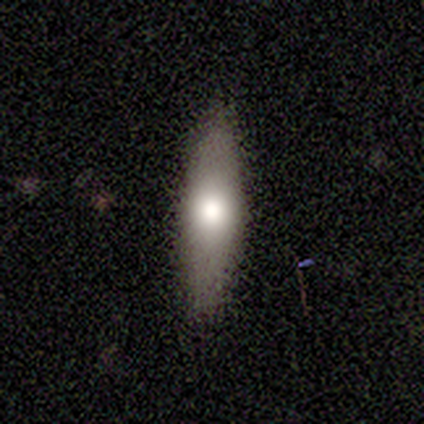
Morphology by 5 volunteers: This appears to be a smooth galaxy with no disk features (40%, tied with featured or disk) that is in between round and cigar-shaped (100%). Merging: none (75%).